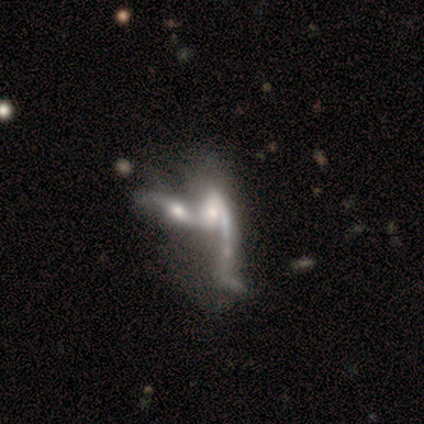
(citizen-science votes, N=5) Morphology: type=featured or disk (60%); edge-on=no (100%); bar=no (67%); spiral arms=no (67%); bulge=large (33%, tied with moderate and small); merging=merger (80%).